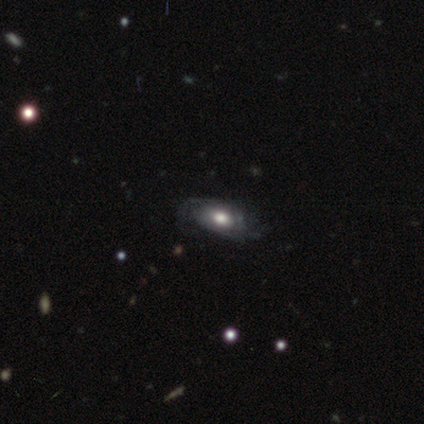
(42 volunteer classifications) A featured or disk galaxy (67%) with no bar (96%), tight (71%) spiral arms (78%) and a moderate central bulge (52%). Merging: none (57%).